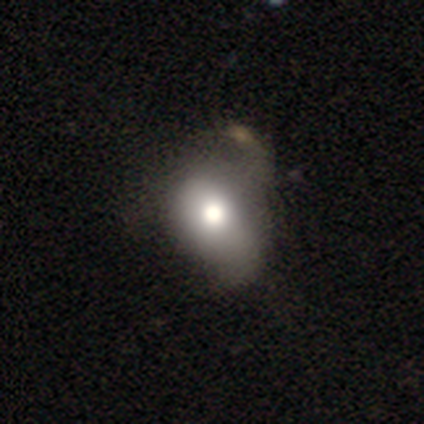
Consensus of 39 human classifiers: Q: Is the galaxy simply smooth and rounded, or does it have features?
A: smooth — 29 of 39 (74%).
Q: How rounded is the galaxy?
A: in between — 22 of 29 (76%).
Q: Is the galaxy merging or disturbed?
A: major disturbance — 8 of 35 (23%).